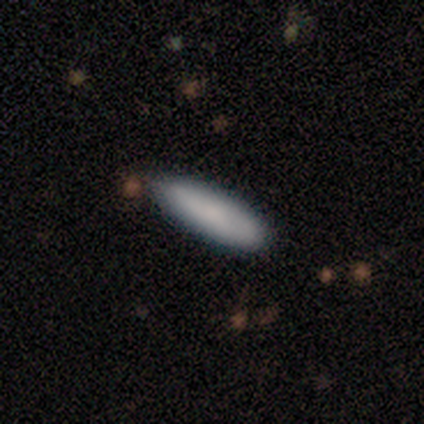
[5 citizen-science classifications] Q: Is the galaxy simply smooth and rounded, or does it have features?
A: smooth — 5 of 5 (100%).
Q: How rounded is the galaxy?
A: cigar-shaped — 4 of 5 (80%).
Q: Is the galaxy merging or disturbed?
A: none — 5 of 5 (100%).